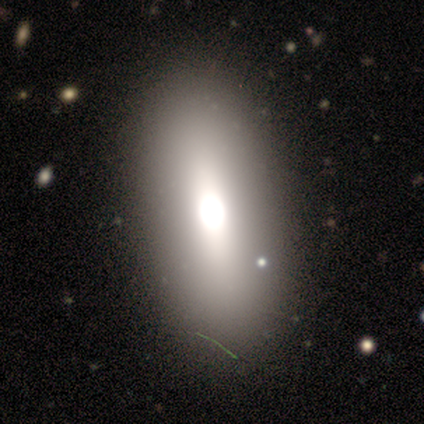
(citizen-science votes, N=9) Volunteers were most divided on "smooth or featured": smooth: 56%, featured or disk: 33%, star or artifact: 11%. More confident: how rounded — in between (100%); merging — none (88%).